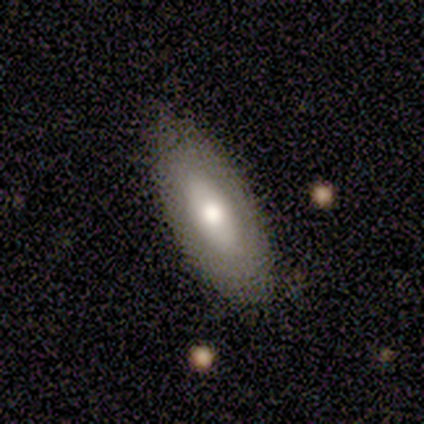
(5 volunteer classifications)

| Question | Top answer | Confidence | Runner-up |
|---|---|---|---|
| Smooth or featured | smooth | 40% | tied: featured or disk (40%) |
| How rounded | in between | 100% | — |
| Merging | none | 100% | — |